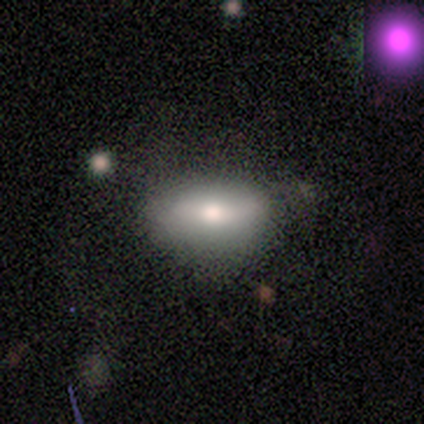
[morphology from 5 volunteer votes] smooth 60%, featured or disk 20%, star or artifact 20%. Down the decision tree: how rounded — in between (100%); merging — none (75%).